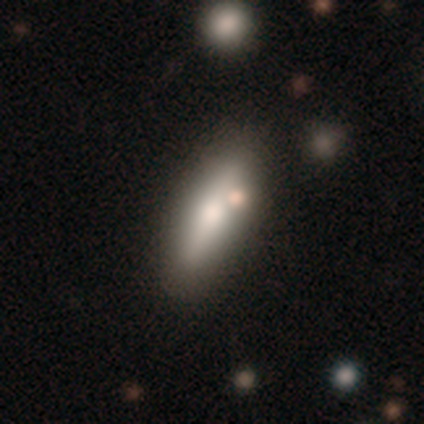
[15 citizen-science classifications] smooth-or-featured: featured or disk: 60% | smooth: 40% | star or artifact: 0%
  disk-edge-on: yes: 89% | no: 11%
    edge-on-bulge: rounded: 100% | boxy: 0% | none: 0%
  merging: none: 60% | minor disturbance: 27% | major disturbance: 7% | merger: 7%